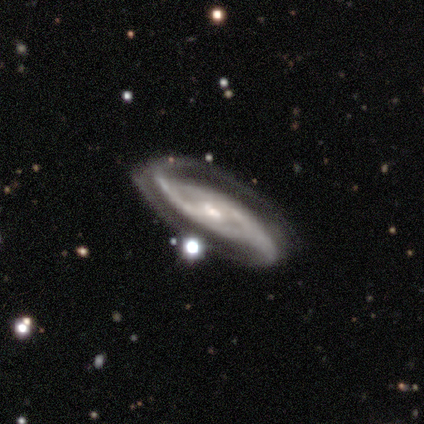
Smooth or featured: featured or disk — 100%
Edge-on disk: no — 100%
Bar: strong — 60% (weak — 40%)
Spiral arms: yes — 100%
Spiral winding: loose — 80% (tight — 20%)
Spiral arm count: 2 — 100%
Bulge size: moderate — 60% (large — 20%)
Merging: none — 60% (minor disturbance — 20%)